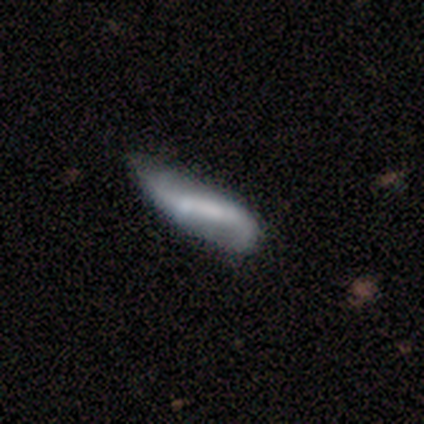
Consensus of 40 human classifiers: A featured or disk galaxy (68%) with no bar (57%), 2 (78%) loose (89%) spiral arms (86%) and no central bulge (57%). Merging: none (28%).